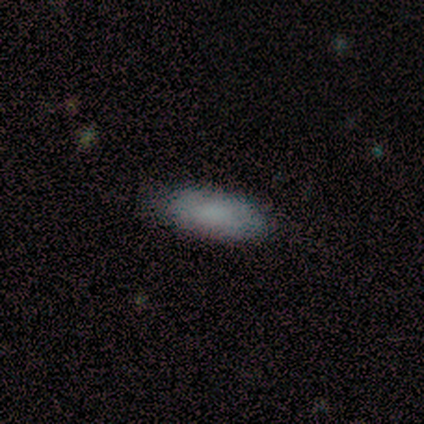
Smooth or featured? 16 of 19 (84%) said smooth. How rounded? 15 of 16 (94%) said in between. Merging? 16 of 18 (89%) said none.